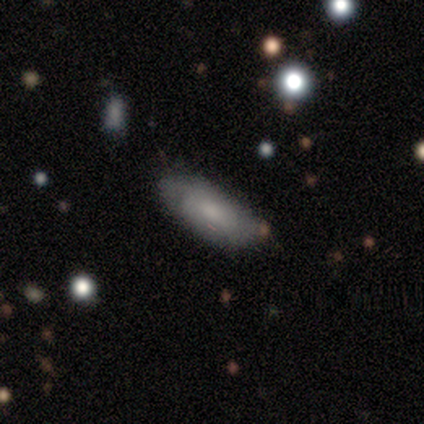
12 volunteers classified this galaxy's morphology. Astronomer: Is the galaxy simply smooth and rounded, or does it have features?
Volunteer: smooth — 50% (runner-up: featured or disk, 42%).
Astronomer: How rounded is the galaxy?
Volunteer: in between — 67%.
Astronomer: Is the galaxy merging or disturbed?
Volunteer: none — 82%.